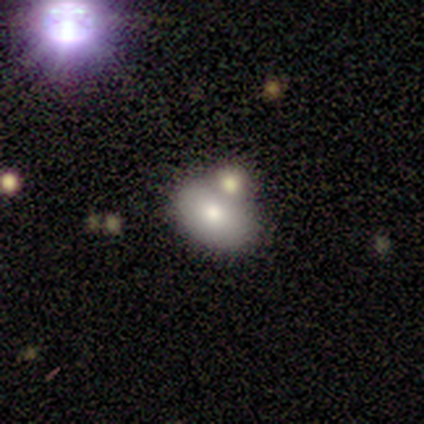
smooth 100%, featured or disk 0%, star or artifact 0%. Down the decision tree: how rounded — in between (100%); merging — none (60%).